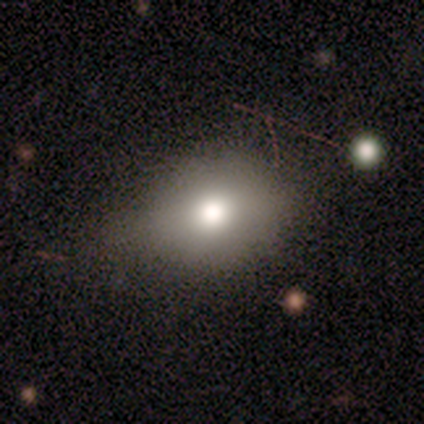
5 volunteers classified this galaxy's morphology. Overall: smooth (80%). How rounded: round (75%). Merging: none (80%).